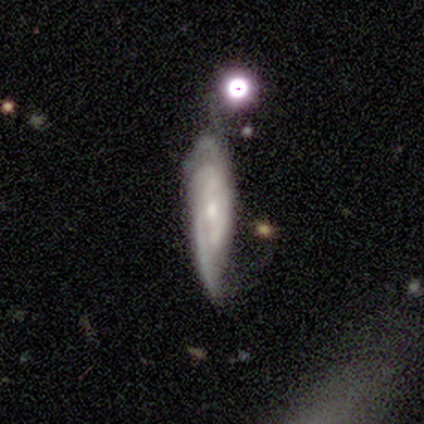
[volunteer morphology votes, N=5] smooth-or-featured: featured or disk: 80% | smooth: 20% | star or artifact: 0%
  disk-edge-on: no: 75% | yes: 25%
    bar: no: 100% | strong: 0% | weak: 0%
    has-spiral-arms: yes: 100% | no: 0%
      spiral-winding: tight: 67% | loose: 33% | medium: 0%
      spiral-arm-count: can't tell: 67% | 2: 33% | 1: 0% | 3: 0% | 4: 0% | more than 4: 0%
    bulge-size: small: 67% | moderate: 33% | dominant: 0% | large: 0% | none: 0%
  merging: none: 60% | minor disturbance: 20% | major disturbance: 20% | merger: 0%